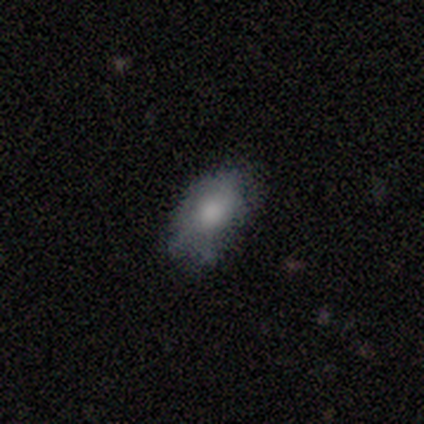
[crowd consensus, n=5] A smooth galaxy with no disk features (40%, tied with star or artifact) that is in between round and cigar-shaped (100%).

Vote fractions:
- Smooth or featured? smooth: 40% (tied) / star or artifact: 40% (tied) / featured or disk: 20%
- How rounded? in between: 100% / round: 0% / cigar-shaped: 0%
- Merging? none: 67% / minor disturbance: 33% / major disturbance: 0% / merger: 0%